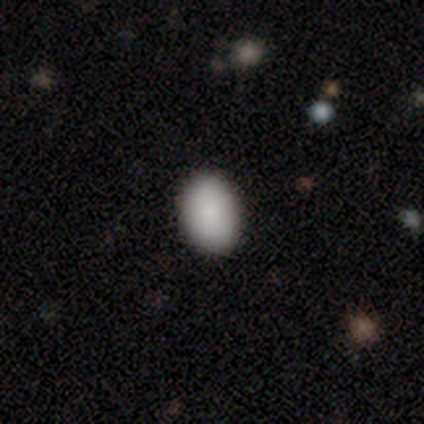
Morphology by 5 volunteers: This is clearly a smooth galaxy (100%). How rounded: clearly in between (80%). Merging: clearly none (100%).